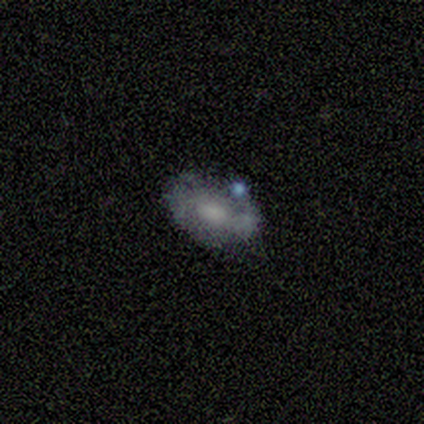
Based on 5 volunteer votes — Morphology: type=featured or disk (60%); edge-on=no (100%); bar=strong (33%, tied with weak and no); spiral arms=no (67%); bulge=small (67%); merging=none (50%).